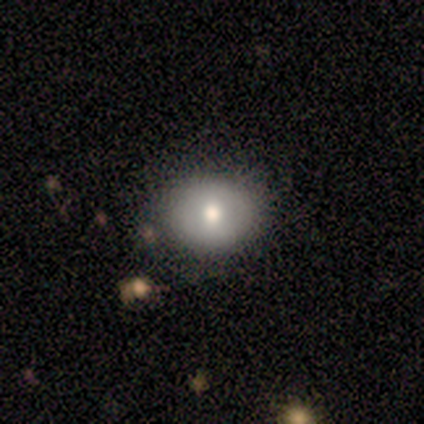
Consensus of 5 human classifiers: Smooth or featured: featured or disk — 60% (smooth — 20%)
Edge-on disk: no — 100%
Bar: no — 67% (weak — 33%)
Spiral arms: no — 67% (yes — 33%)
Bulge size: moderate — 67% (large — 33%)
Merging: none — 50% (minor disturbance — 25%)